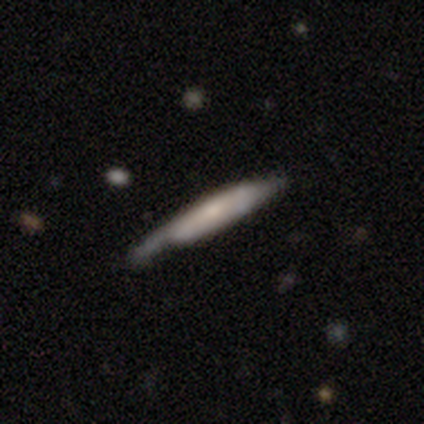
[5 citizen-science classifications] A smooth galaxy with no disk features (60%) that is cigar-shaped (100%).

Vote fractions:
- Smooth or featured? smooth: 60% / featured or disk: 40% / star or artifact: 0%
- How rounded? cigar-shaped: 100% / round: 0% / in between: 0%
- Merging? none: 80% / minor disturbance: 20% / major disturbance: 0% / merger: 0%